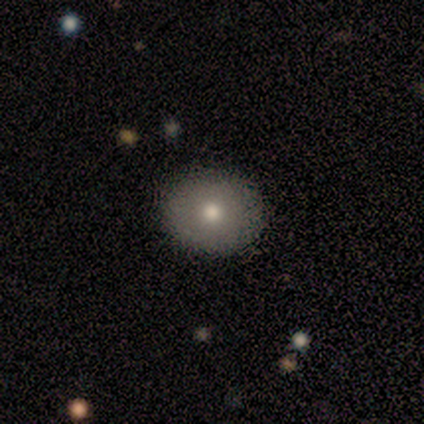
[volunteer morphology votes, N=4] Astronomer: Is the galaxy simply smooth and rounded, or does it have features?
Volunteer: smooth — 50%, tied with featured or disk at 50%.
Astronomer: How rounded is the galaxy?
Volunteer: round — 50%, tied with in between at 50%.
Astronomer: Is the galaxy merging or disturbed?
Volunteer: none — 100%.